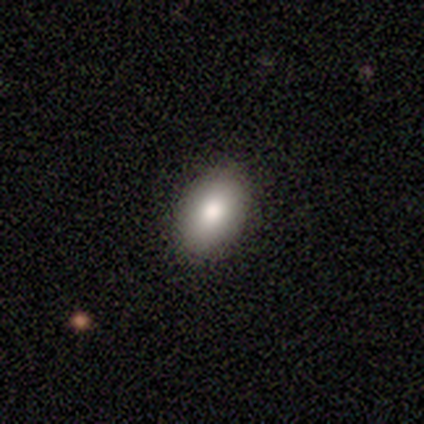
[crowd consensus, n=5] Volunteers were most divided on "smooth or featured": smooth: 80%, featured or disk: 20%, star or artifact: 0%. More confident: how rounded — in between (100%); merging — none (80%).